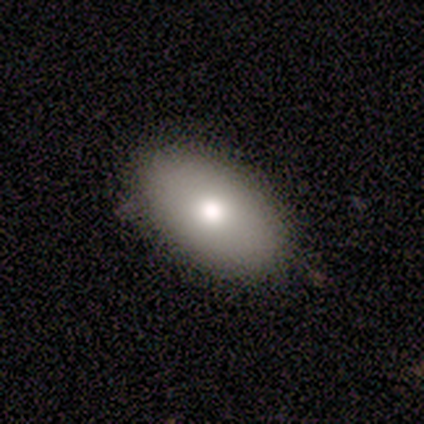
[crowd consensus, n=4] smooth_or_featured: smooth (p=0.75) [alt: star or artifact p=0.25]
how_rounded: in between (p=1.00)
merging: none (p=1.00)